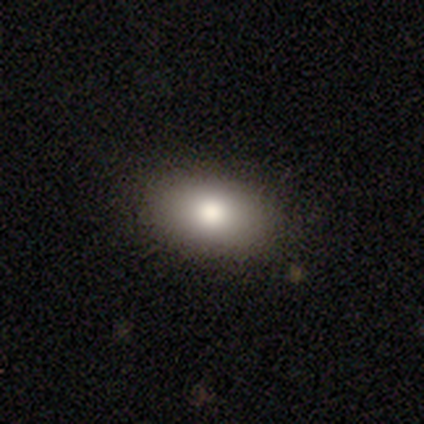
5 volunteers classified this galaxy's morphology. smooth-or-featured: smooth: 80% | featured or disk: 20% | star or artifact: 0%
  how-rounded: in between: 100% | round: 0% | cigar-shaped: 0%
  merging: none: 60% | minor disturbance: 40% | major disturbance: 0% | merger: 0%